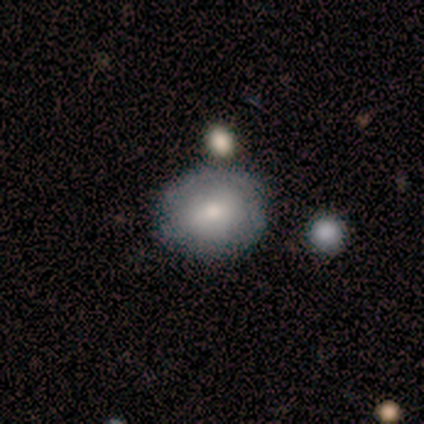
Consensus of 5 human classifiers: Q: Smooth or featured?
A: smooth (40%); tied with: featured or disk (40%)
Q: How rounded?
A: in between (100%)
Q: Merging?
A: none (100%)